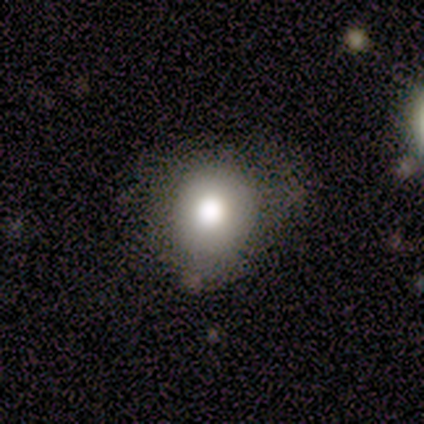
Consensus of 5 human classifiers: smooth 80%, featured or disk 20%, star or artifact 0%. Down the decision tree: how rounded — round (75%); merging — none (60%).